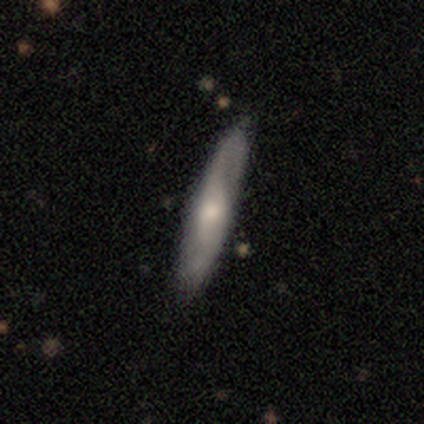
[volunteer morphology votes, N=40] This appears to be a featured or disk galaxy (65%) with no bar (56%), 2 (67%) loose (60%) spiral arms (94%) and a moderate central bulge (38%). Merging: none (72%).